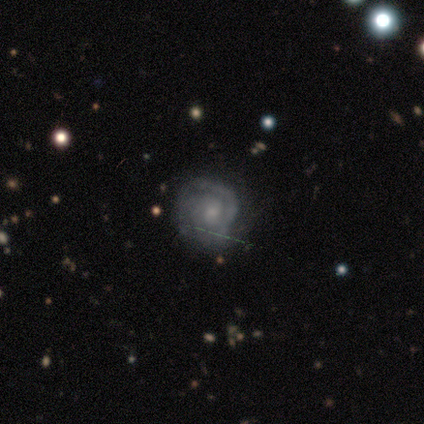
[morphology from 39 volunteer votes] featured or disk 72%, smooth 23%, star or artifact 5%. Down the decision tree: edge-on disk — no (96%); bar — no (81%); spiral arms — yes (96%); spiral arm count — 2 (31%, tied with 3); spiral winding — tight (77%); bulge size — small (59%); merging — none (70%).